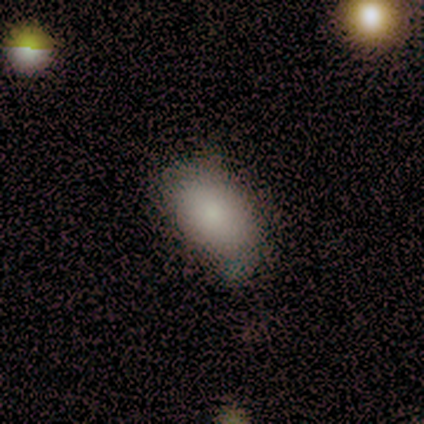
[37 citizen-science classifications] smooth 84%, star or artifact 11%, featured or disk 5%. Down the decision tree: how rounded — in between (97%); merging — none (55%).